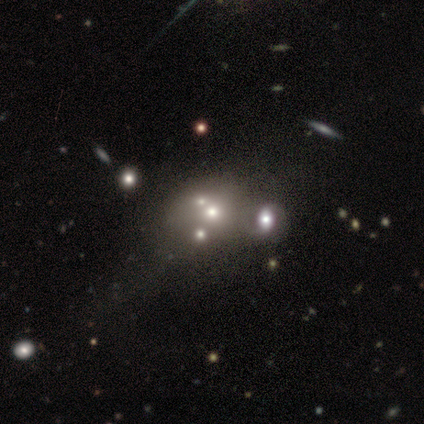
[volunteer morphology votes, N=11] type=star or artifact (55%).